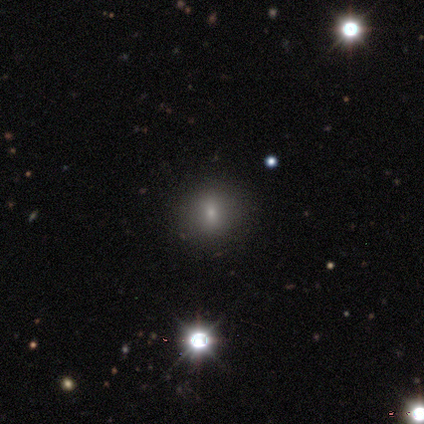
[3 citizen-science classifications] Smooth or featured? 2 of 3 (67%) said smooth. How rounded? 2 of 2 (100%) said round. Merging? 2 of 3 (67%) said none.